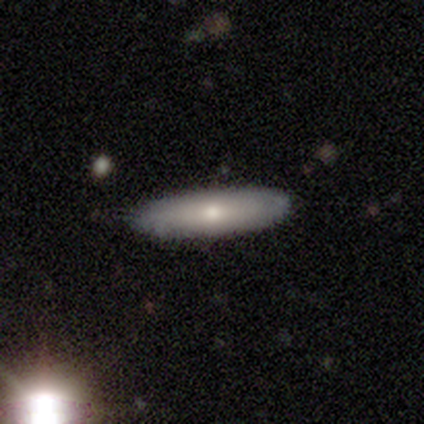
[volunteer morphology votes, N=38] type=smooth (47%); roundness=cigar-shaped (78%); merging=none (88%).